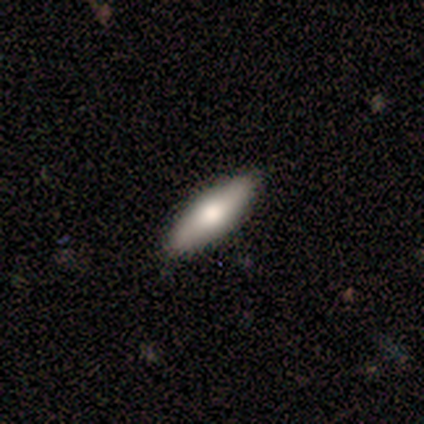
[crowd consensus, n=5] smooth 60%, featured or disk 40%, star or artifact 0%. Down the decision tree: how rounded — cigar-shaped (67%); merging — none (80%).